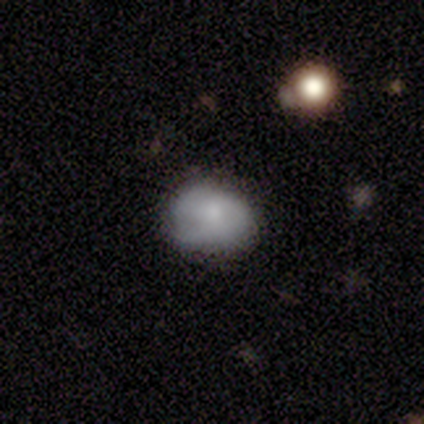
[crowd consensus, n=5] Overall: smooth (100%). How rounded: round (80%). Merging: none (60%; minor disturbance 40%).